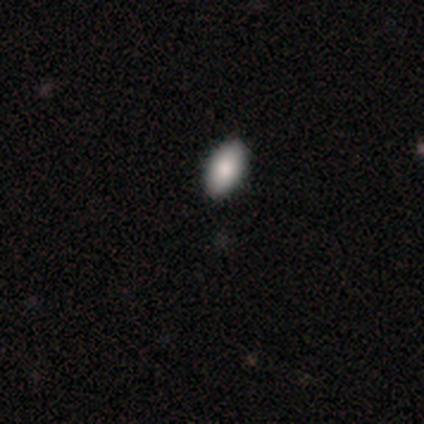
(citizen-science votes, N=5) Smooth or featured? smooth (80%)
How rounded? in between (100%)
Merging? none (100%)